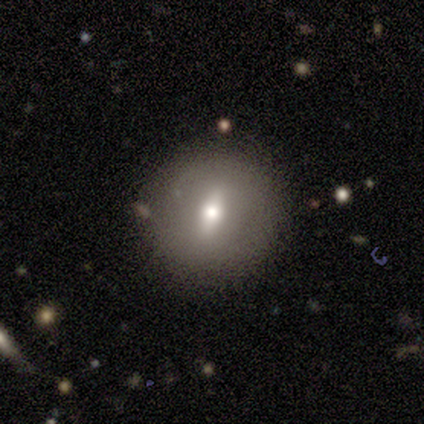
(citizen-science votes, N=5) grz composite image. It shows a smooth galaxy with no disk features (80%) that is round (50%, tied with in between). Merging: none (75%).